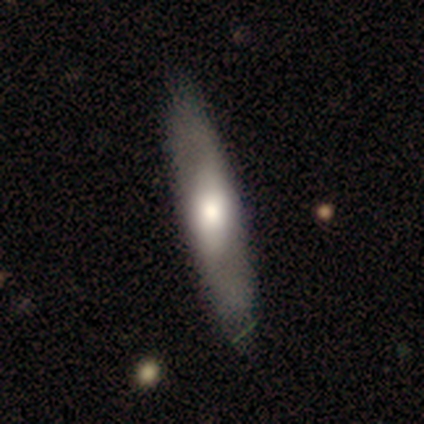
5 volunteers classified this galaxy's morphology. A featured or disk galaxy (100%) viewed edge-on (80%) with a rounded central bulge (50%). Merging: none (60%).